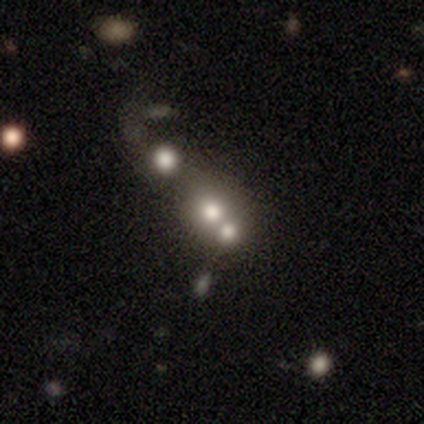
Overall: smooth (59%; featured or disk 21%). How rounded: round (74%). Merging: merger (55%; none 29%).